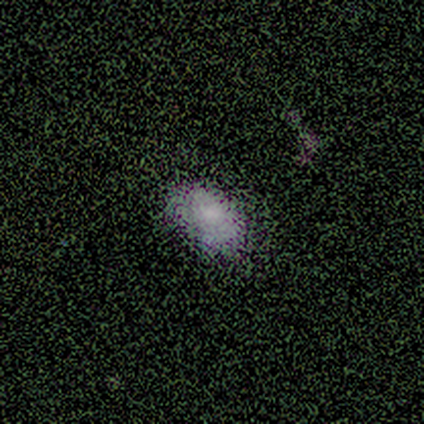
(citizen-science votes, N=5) A smooth galaxy with no disk features (100%) that is in between round and cigar-shaped (100%).

Vote fractions:
- Smooth or featured? smooth: 100% / featured or disk: 0% / star or artifact: 0%
- How rounded? in between: 100% / round: 0% / cigar-shaped: 0%
- Merging? none: 80% / minor disturbance: 20% / major disturbance: 0% / merger: 0%